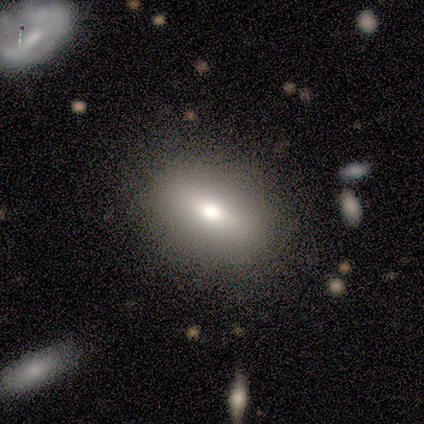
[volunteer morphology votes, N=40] type=smooth (85%); roundness=in between (82%); merging=none (58%).